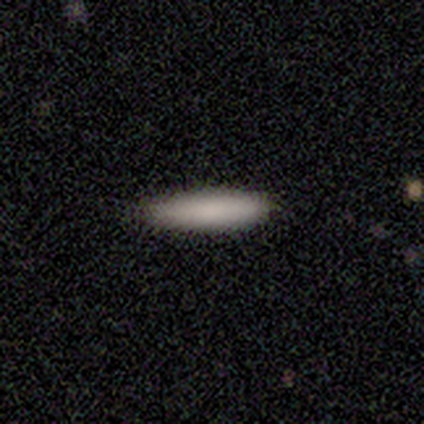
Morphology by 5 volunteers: smooth_or_featured: smooth (p=1.00)
how_rounded: cigar-shaped (p=1.00)
merging: none (p=1.00)